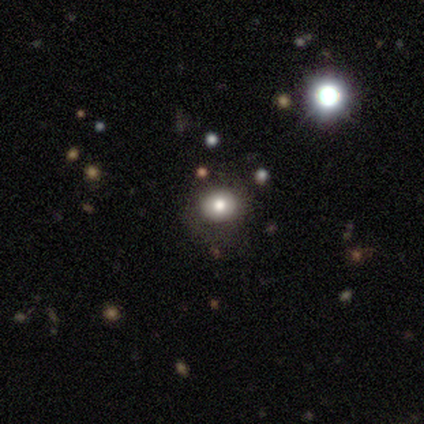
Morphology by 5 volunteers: Smooth or featured: smooth — 100%
How rounded: round — 80% (in between — 20%)
Merging: none — 100%